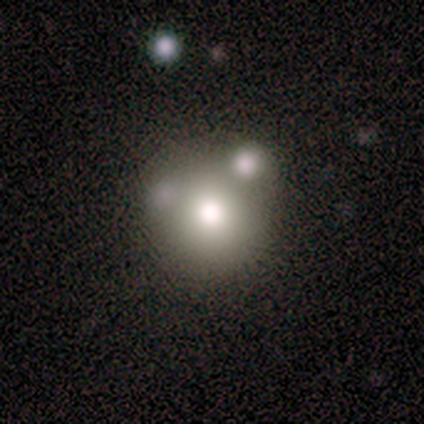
Volunteers were most divided on "merging" (2-way tie): none: 50%, merger: 50%, minor disturbance: 0%, major disturbance: 0%. More confident: how rounded — round (100%); smooth or featured — smooth (75%).